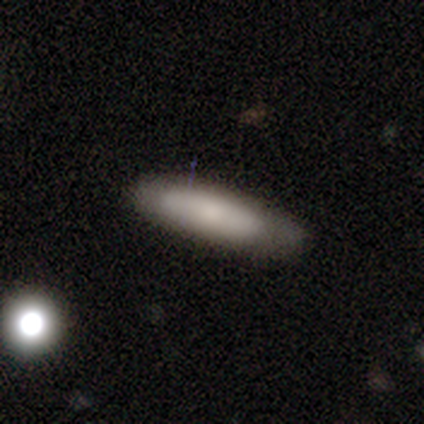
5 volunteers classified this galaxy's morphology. A smooth galaxy with no disk features (100%) that is in between round and cigar-shaped (60%).

Vote fractions:
- Smooth or featured? smooth: 100% / featured or disk: 0% / star or artifact: 0%
- How rounded? in between: 60% / cigar-shaped: 40% / round: 0%
- Merging? none: 100% / minor disturbance: 0% / major disturbance: 0% / merger: 0%